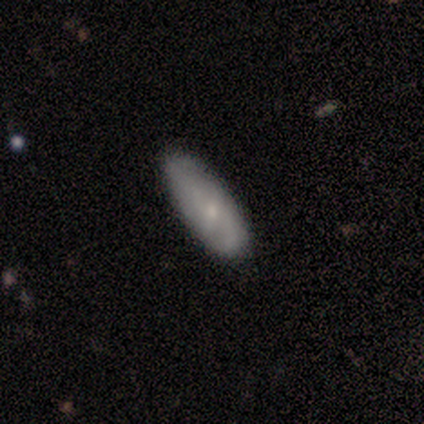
smooth-or-featured: featured or disk: 80% | smooth: 20% | star or artifact: 0%
  disk-edge-on: no: 75% | yes: 25%
    bar: weak: 67% | no: 33% | strong: 0%
    has-spiral-arms: yes: 100% | no: 0%
      spiral-winding: medium: 67% | tight: 33% | loose: 0%
      spiral-arm-count: 1: 33% (tied) | 2: 33% (tied) | can't tell: 33% (tied) | 3: 0% | 4: 0% | more than 4: 0%
    bulge-size: moderate: 67% | small: 33% | dominant: 0% | large: 0% | none: 0%
  merging: none: 100% | minor disturbance: 0% | major disturbance: 0% | merger: 0%